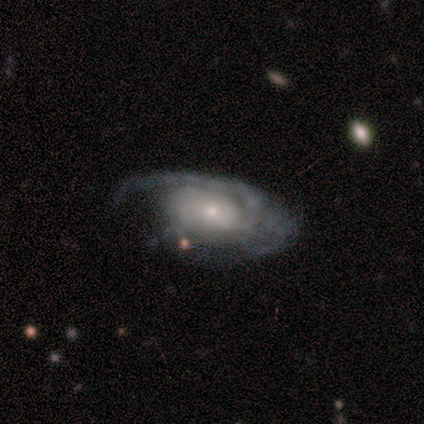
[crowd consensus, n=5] Morphology: type=featured or disk (60%); edge-on=no (100%); bar=no (67%); spiral arms=yes (100%); winding=medium (100%); arm count=1 (33%, tied with 2 and can't tell); bulge=moderate (67%); merging=none (60%).